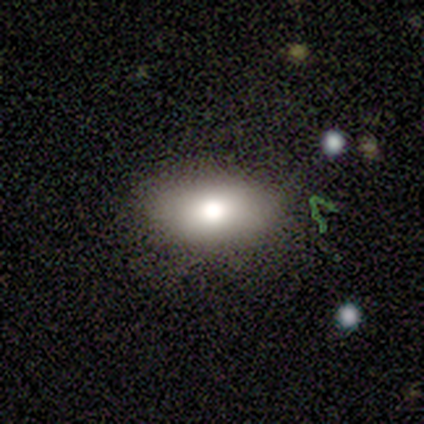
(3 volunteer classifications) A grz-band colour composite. It shows a smooth galaxy with no disk features (100%) that is in between round and cigar-shaped (100%). Merging: none (67%).